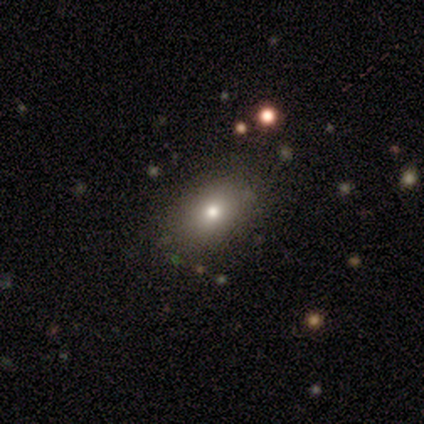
smooth-or-featured: smooth: 80% | star or artifact: 20% | featured or disk: 0%
  how-rounded: in between: 100% | round: 0% | cigar-shaped: 0%
  merging: none: 100% | minor disturbance: 0% | major disturbance: 0% | merger: 0%